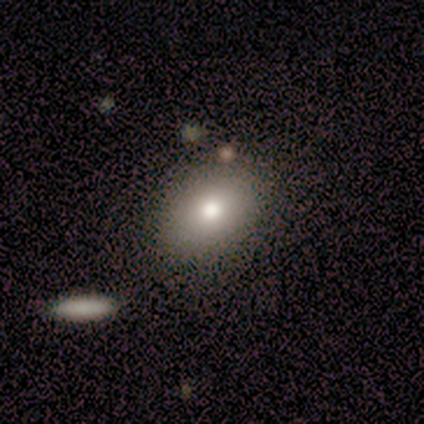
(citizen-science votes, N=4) Smooth or featured?
  - smooth: 75% *
  - featured or disk: 25%
  - star or artifact: 0%
How rounded?
  - in between: 100% *
  - round: 0%
  - cigar-shaped: 0%
Merging?
  - none: 75% *
  - minor disturbance: 25%
  - major disturbance: 0%
  - merger: 0%